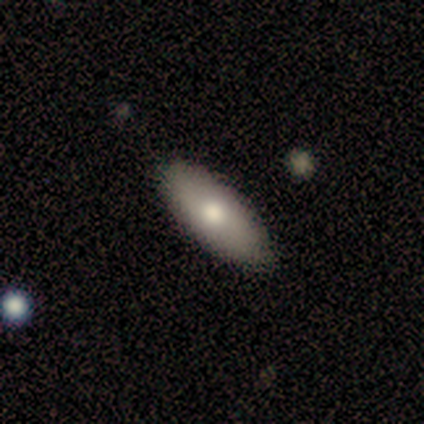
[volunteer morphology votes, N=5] This is likely a smooth galaxy (60%). How rounded: clearly in between (100%). Merging: clearly none (100%).